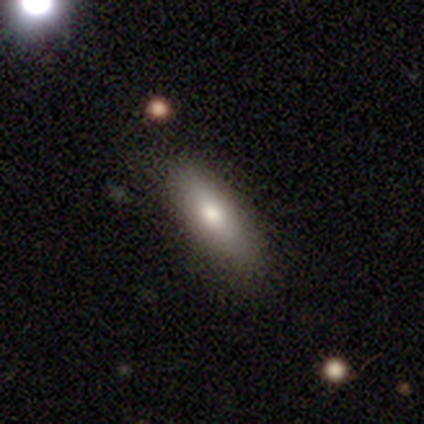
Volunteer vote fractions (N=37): smooth_or_featured: smooth (p=0.86) [alt: featured or disk p=0.11]
how_rounded: in between (p=0.62) [alt: cigar-shaped p=0.38]
merging: none (p=0.78) [alt: minor disturbance p=0.19]